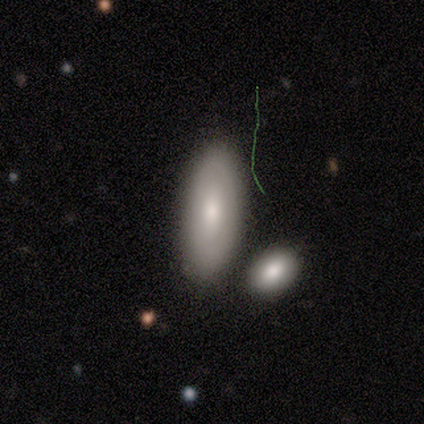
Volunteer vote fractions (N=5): This appears to be a smooth galaxy with no disk features (80%) that is in between round and cigar-shaped (100%). Merging: none (100%).